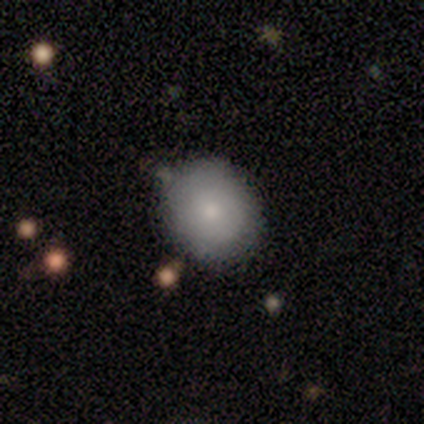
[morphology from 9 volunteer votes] Smooth or featured: smooth — 56% (featured or disk — 33%)
How rounded: round — 100%
Merging: none — 88% (merger — 12%)